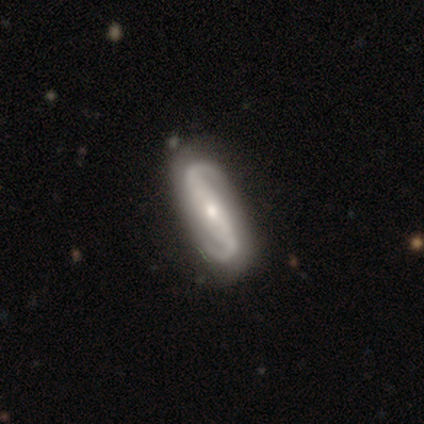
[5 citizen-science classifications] Volunteers were most divided on "bar" (2-way tie): strong: 40%, no: 40%, weak: 20%. More confident: smooth or featured — featured or disk (100%); edge-on disk — no (100%); spiral arms — yes (100%); spiral arm count — 2 (100%); merging — none (100%); bulge size — moderate (60%); spiral winding — loose (60%).